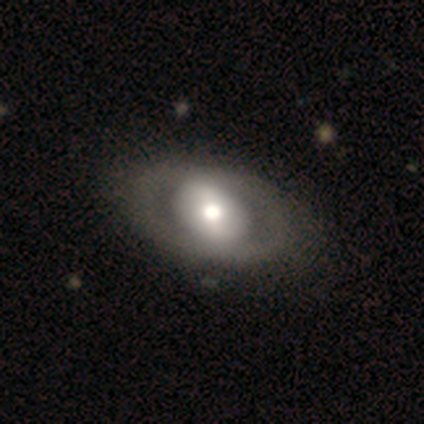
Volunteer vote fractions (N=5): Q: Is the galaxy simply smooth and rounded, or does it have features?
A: featured or disk — 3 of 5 (60%).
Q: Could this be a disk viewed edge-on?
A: no — 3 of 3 (100%).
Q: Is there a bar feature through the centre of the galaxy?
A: no — 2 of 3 (67%).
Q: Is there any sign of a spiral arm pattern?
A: no — 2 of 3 (67%).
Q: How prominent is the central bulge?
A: moderate — 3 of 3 (100%).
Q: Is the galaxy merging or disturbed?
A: none — 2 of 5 (40%, tied with minor disturbance).